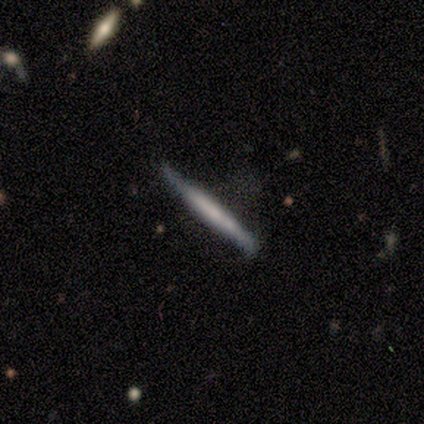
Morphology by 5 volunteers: Smooth or featured? smooth (60%)
How rounded? cigar-shaped (100%)
Merging? none (40%, tied with minor disturbance)